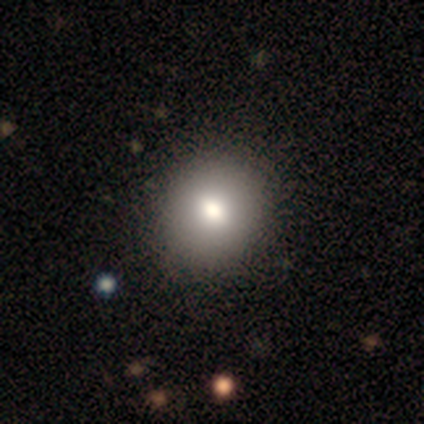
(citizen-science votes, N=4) Smooth or featured: smooth — 50% (featured or disk — 25%)
How rounded: round — 100%
Merging: none — 67% (major disturbance — 33%)